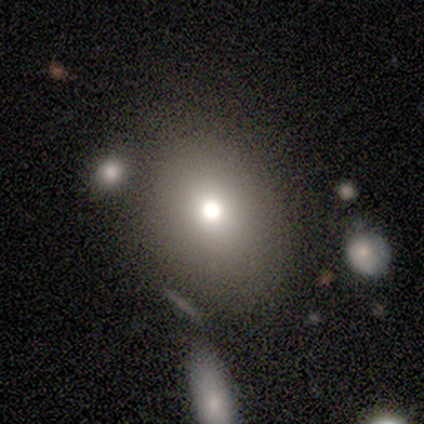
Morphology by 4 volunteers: Smooth or featured? smooth (100%)
How rounded? round (50%, tied with in between)
Merging? none (100%)